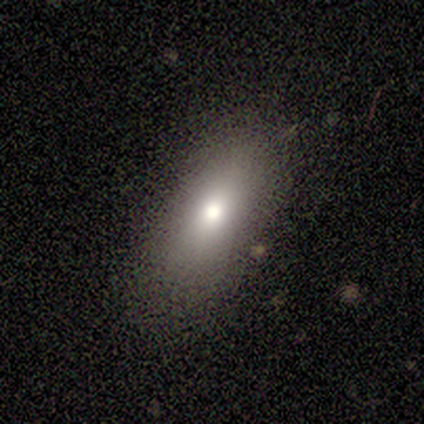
Q: Smooth or featured?
A: smooth (80%); runner-up: featured or disk (20%)
Q: How rounded?
A: in between (75%); runner-up: round (25%)
Q: Merging?
A: none (80%); runner-up: minor disturbance (20%)